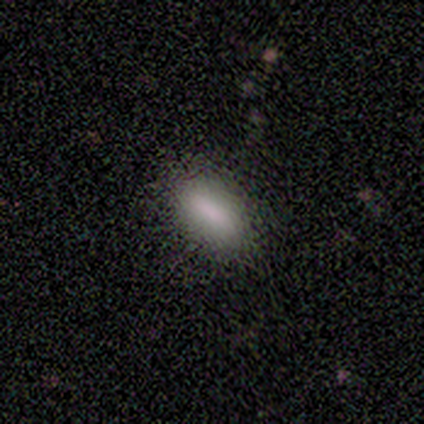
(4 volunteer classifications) Morphology: type=smooth (100%); roundness=in between (100%); merging=none (100%).